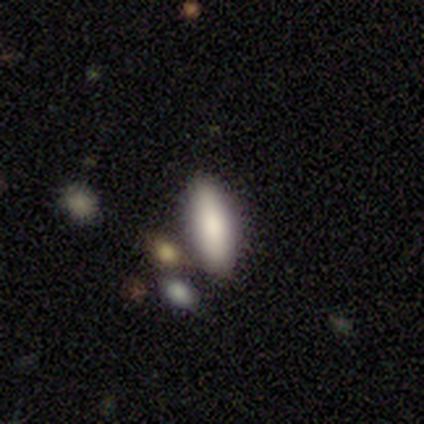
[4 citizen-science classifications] Consensus on every question: smooth or featured — smooth (100%); how rounded — in between (100%); merging — none (100%).